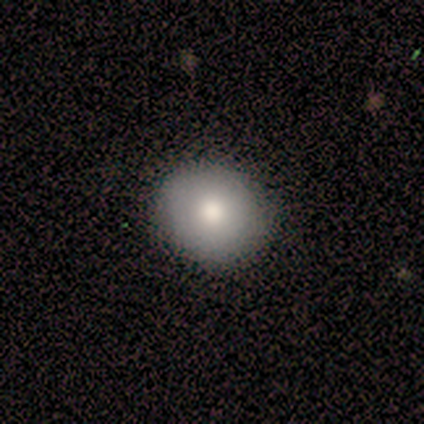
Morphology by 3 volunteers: Q: Smooth or featured?
A: smooth (67%); runner-up: star or artifact (33%)
Q: How rounded?
A: round (100%)
Q: Merging?
A: none (50%); tied with: minor disturbance (50%)